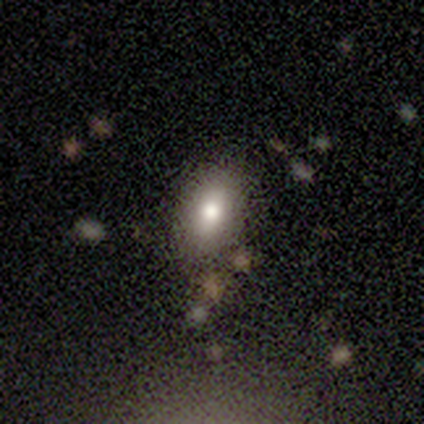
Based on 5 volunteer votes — smooth-or-featured: smooth: 100% | featured or disk: 0% | star or artifact: 0%
  how-rounded: in between: 100% | round: 0% | cigar-shaped: 0%
  merging: none: 80% | minor disturbance: 20% | major disturbance: 0% | merger: 0%